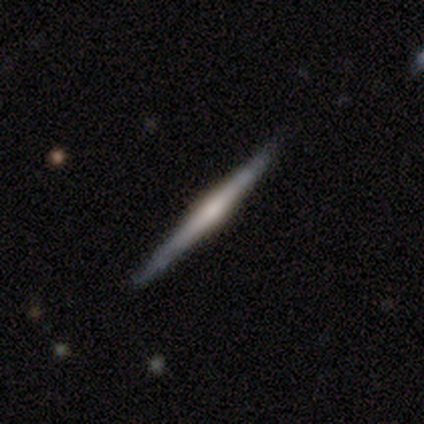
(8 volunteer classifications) featured or disk 100%, smooth 0%, star or artifact 0%. Down the decision tree: edge-on disk — yes (100%); edge-on bulge — rounded (62%); merging — none (88%).